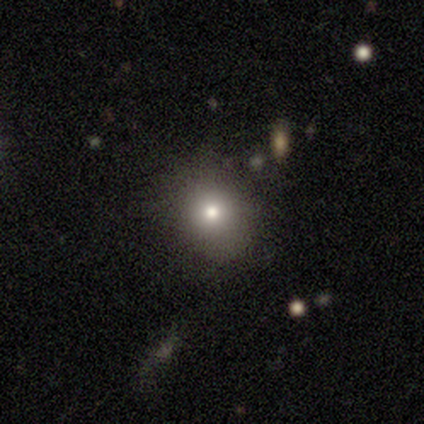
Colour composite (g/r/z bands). It shows a smooth galaxy with no disk features (79%) that is round (77%). Merging: none (82%).